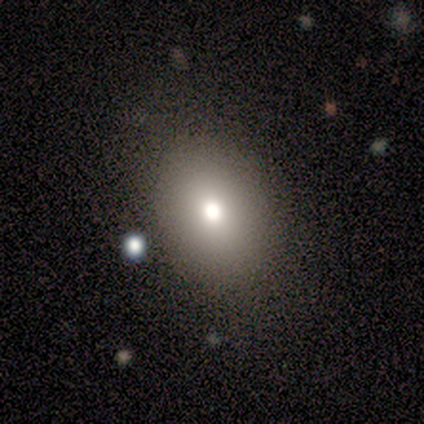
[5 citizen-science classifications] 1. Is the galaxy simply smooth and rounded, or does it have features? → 100% smooth, 0% featured or disk, 0% star or artifact.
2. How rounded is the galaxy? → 80% in between, 20% round, 0% cigar-shaped.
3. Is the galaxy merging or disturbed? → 40% none, 20% minor disturbance, 20% major disturbance, 20% merger.